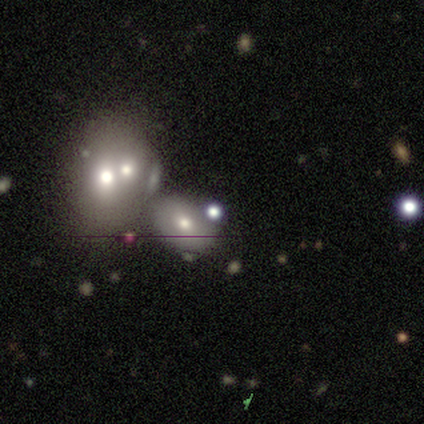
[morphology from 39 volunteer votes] Smooth or featured? smooth (49%)
How rounded? round (58%)
Merging? none (50%)